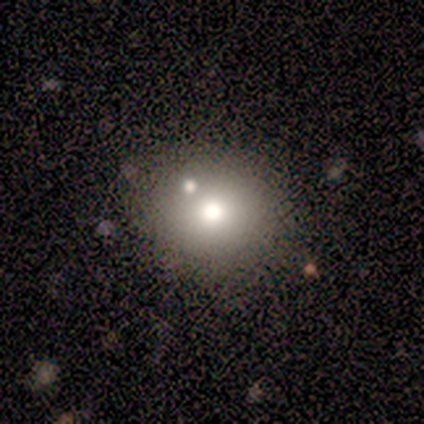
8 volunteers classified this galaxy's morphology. Overall: smooth (62%; star or artifact 25%). How rounded: round (100%). Merging: none (50%; minor disturbance 17%).